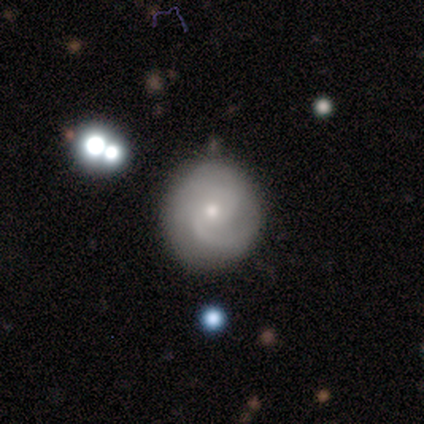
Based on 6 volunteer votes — A featured or disk galaxy (100%) with no bar (100%), 2 (67%) tight (50%) spiral arms (100%) and a moderate central bulge (67%).

Vote fractions:
- Smooth or featured? featured or disk: 100% / smooth: 0% / star or artifact: 0%
- Edge-on disk? no: 100% / yes: 0%
- Bar? no: 100% / strong: 0% / weak: 0%
- Spiral arms? yes: 100% / no: 0%
- Spiral winding? tight: 50% / medium: 33% / loose: 17%
- Spiral arm count? 2: 67% / can't tell: 33% / 1: 0% / 3: 0% / 4: 0% / more than 4: 0%
- Bulge size? moderate: 67% / small: 33% / dominant: 0% / large: 0% / none: 0%
- Merging? none: 67% / minor disturbance: 33% / major disturbance: 0% / merger: 0%